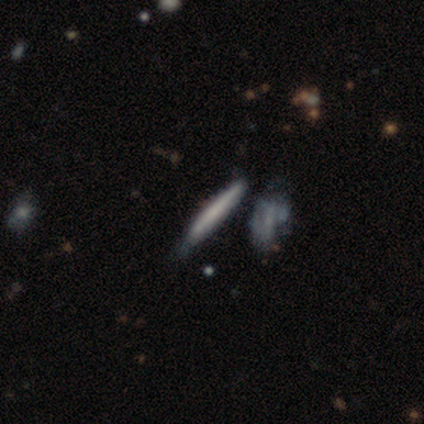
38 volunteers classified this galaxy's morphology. Smooth or featured? smooth (53%)
How rounded? cigar-shaped (100%)
Merging? none (67%)